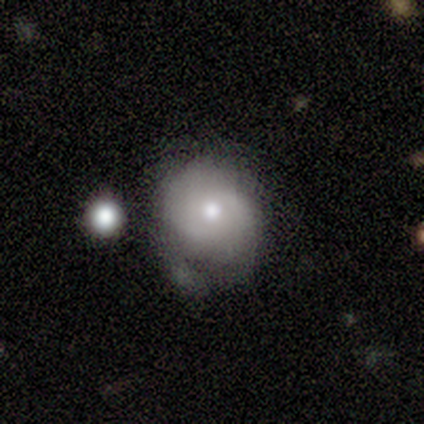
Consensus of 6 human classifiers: Smooth or featured: featured or disk — 50% (star or artifact — 33%)
Edge-on disk: no — 100%
Bar: no — 67% (weak — 33%)
Spiral arms: yes — 67% (no — 33%)
Spiral winding: medium — 100%
Spiral arm count: 2 — 50% (tied with can't tell — 50%)
Bulge size: small — 67% (moderate — 33%)
Merging: none — 50% (minor disturbance — 25%)